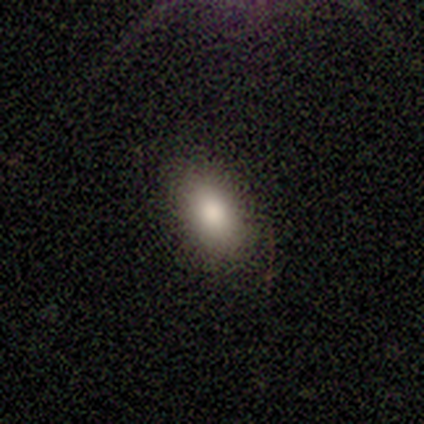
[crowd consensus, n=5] Q: Smooth or featured?
A: smooth (80%); runner-up: featured or disk (20%)
Q: How rounded?
A: in between (50%); runner-up: round (25%)
Q: Merging?
A: none (60%); runner-up: minor disturbance (20%)